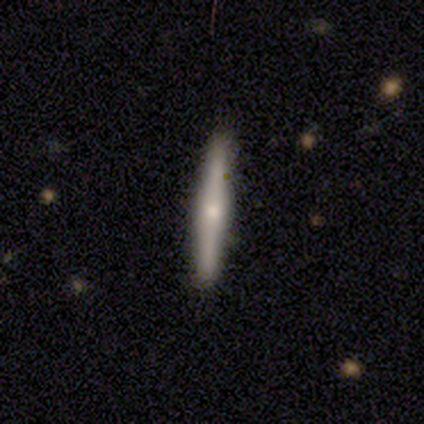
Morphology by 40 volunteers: Smooth or featured: featured or disk — 57% (smooth — 38%)
Edge-on disk: yes — 96% (no — 4%)
Edge-on bulge: rounded — 64% (boxy — 18%)
Merging: none — 95% (major disturbance — 3%)